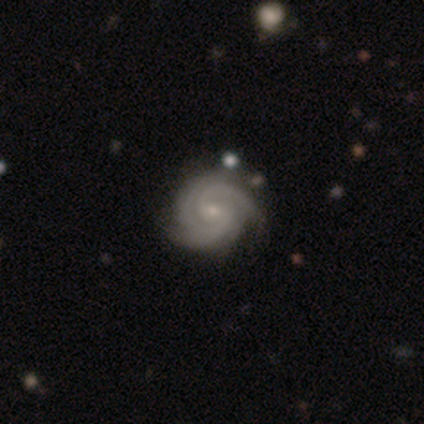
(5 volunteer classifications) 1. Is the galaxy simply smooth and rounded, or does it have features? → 100% featured or disk, 0% smooth, 0% star or artifact.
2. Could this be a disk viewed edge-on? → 80% no, 20% yes.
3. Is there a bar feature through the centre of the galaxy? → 75% no, 25% weak, 0% strong.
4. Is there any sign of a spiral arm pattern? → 100% yes, 0% no.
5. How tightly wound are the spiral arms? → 75% tight, 25% loose, 0% medium.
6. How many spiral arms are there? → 75% 2, 25% 3, 0% 1, 0% 4, 0% more than 4, 0% can't tell.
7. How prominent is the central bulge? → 75% small, 25% moderate, 0% dominant, 0% large, 0% none.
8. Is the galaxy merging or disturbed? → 100% none, 0% minor disturbance, 0% major disturbance, 0% merger.